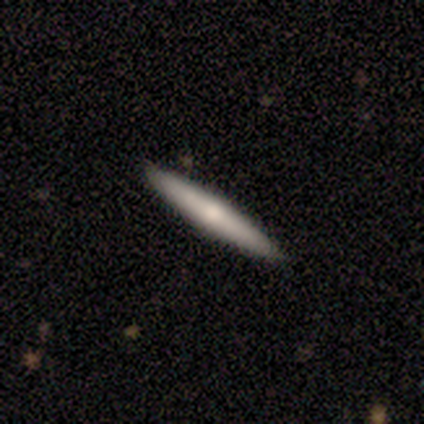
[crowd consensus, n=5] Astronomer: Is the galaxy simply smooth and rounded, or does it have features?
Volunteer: featured or disk — 60% (runner-up: smooth, 40%).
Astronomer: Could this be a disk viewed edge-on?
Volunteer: yes — 100%.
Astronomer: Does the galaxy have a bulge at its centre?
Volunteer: rounded — 67%.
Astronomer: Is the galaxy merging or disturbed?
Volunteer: none — 80%.